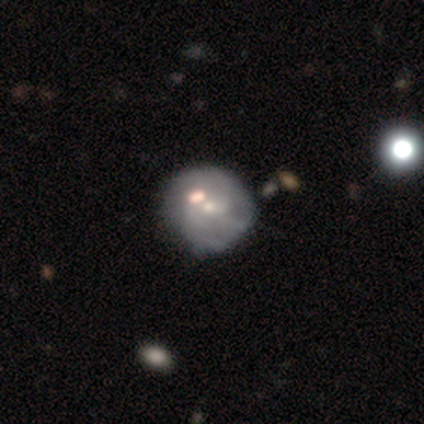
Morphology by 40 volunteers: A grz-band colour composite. It shows a featured or disk galaxy (62%) with no bar (79%), 2 (29%, tied with 3 and can't tell) medium (41%) spiral arms (71%) and a small central bulge (54%). Merging: none (44%).